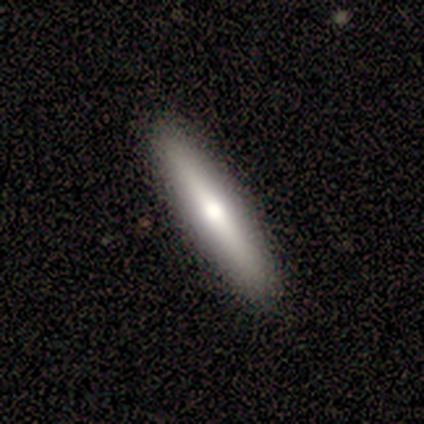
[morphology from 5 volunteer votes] smooth_or_featured: featured or disk (p=0.60) [alt: smooth p=0.40]
disk_edge_on: yes (p=1.00)
edge_on_bulge: rounded (p=1.00)
merging: none (p=1.00)